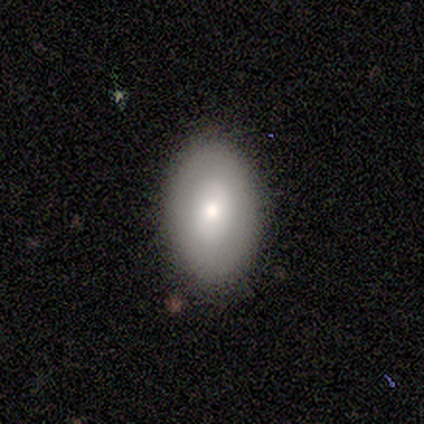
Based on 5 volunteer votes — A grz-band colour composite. It shows a smooth galaxy with no disk features (100%) that is in between round and cigar-shaped (80%). Merging: none (100%).